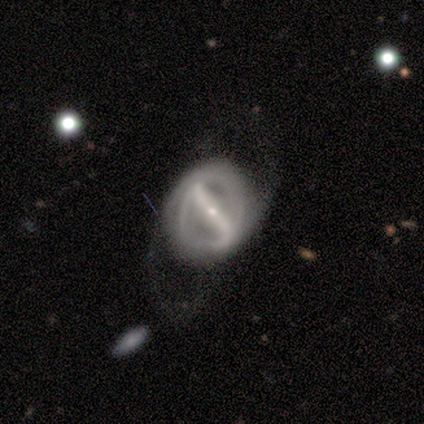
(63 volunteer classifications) Volunteers were most divided on "merging": none: 38%, major disturbance: 32%, minor disturbance: 28%, merger: 2%. Remaining: edge-on disk — no (100%); bar — strong (96%); smooth or featured — featured or disk (89%); spiral arms — yes (80%); bulge size — small (79%); spiral arm count — 2 (78%); spiral winding — tight (49%).